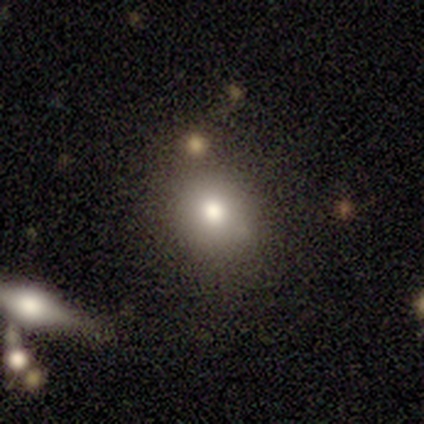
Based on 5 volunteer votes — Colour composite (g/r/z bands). It shows a smooth galaxy with no disk features (40%, tied with featured or disk) that is in between round and cigar-shaped (100%). Merging: minor disturbance (75%).